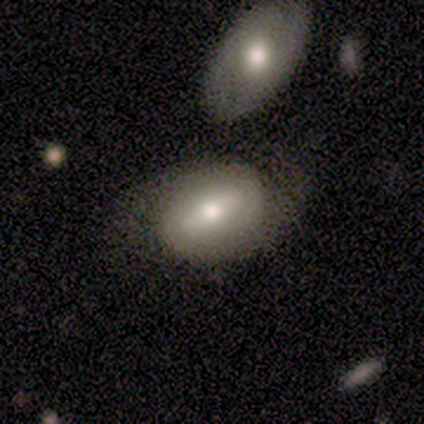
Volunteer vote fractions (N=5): Smooth or featured? 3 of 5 (60%) said featured or disk. Edge-on disk? 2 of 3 (67%) said no. Bar? 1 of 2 (50%, tied with no) said weak. Spiral arms? 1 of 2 (50%, tied with no) said yes. Spiral winding? 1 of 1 (100%) said medium. Spiral arm count? 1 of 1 (100%) said 2. Bulge size? 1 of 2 (50%, tied with moderate) said large. Merging? 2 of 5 (40%, tied with minor disturbance) said none.